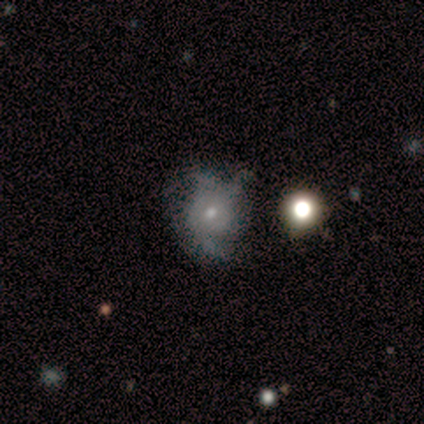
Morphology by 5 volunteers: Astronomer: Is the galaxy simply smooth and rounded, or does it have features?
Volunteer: smooth — 60% (runner-up: featured or disk, 40%).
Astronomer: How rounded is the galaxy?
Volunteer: round — 67%.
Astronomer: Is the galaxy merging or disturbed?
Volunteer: none — 60% (runner-up: minor disturbance, 40%).